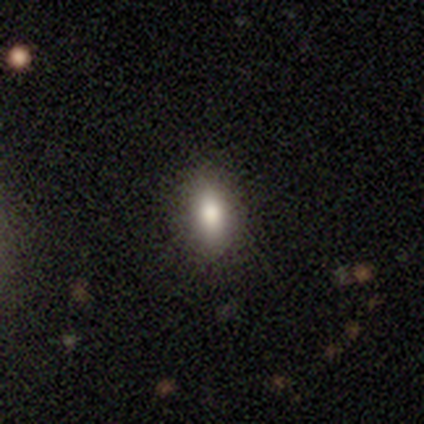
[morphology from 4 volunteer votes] This appears to be a smooth galaxy with no disk features (100%) that is in between round and cigar-shaped (75%). Merging: none (100%).